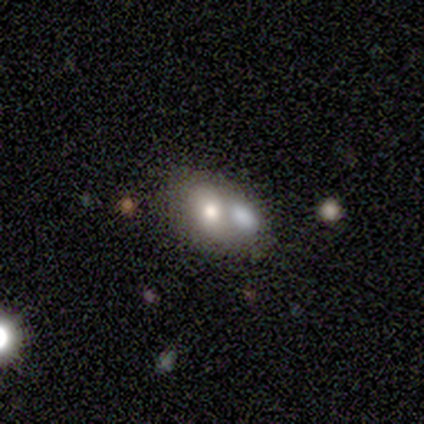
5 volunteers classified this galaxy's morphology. Smooth or featured: smooth — 80% (featured or disk — 20%)
How rounded: in between — 100%
Merging: merger — 80% (none — 20%)